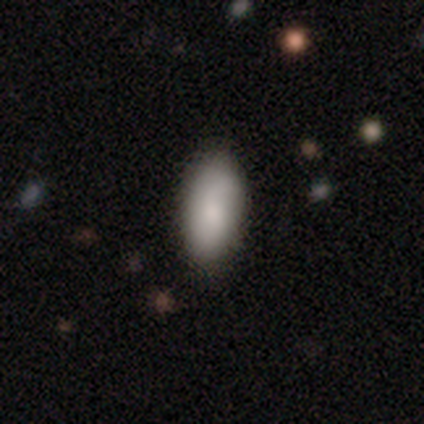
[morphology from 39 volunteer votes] A smooth galaxy with no disk features (79%) that is in between round and cigar-shaped (94%). Merging: none (44%).